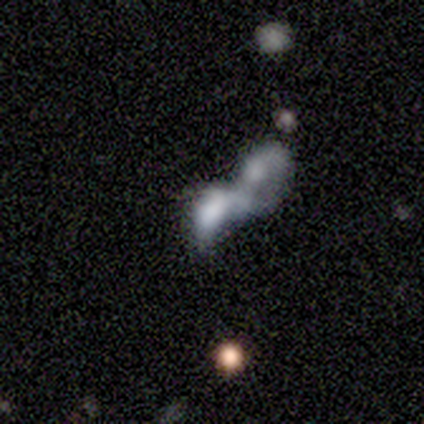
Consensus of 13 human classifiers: A smooth galaxy with no disk features (54%) that is in between round and cigar-shaped (71%).

Vote fractions:
- Smooth or featured? smooth: 54% / featured or disk: 31% / star or artifact: 15%
- How rounded? in between: 71% / round: 14% / cigar-shaped: 14%
- Merging? merger: 55% / major disturbance: 27% / minor disturbance: 18% / none: 0%